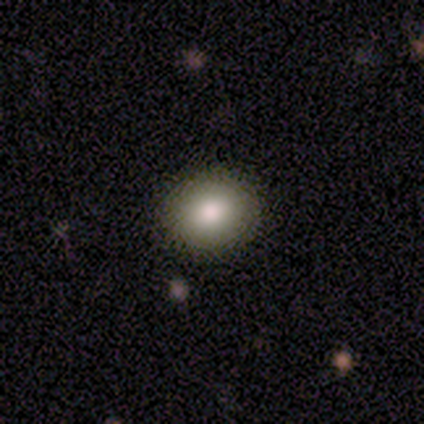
Smooth or featured: smooth — 86% (star or artifact — 8%)
How rounded: round — 56% (in between — 44%)
Merging: none — 88% (minor disturbance — 6%)